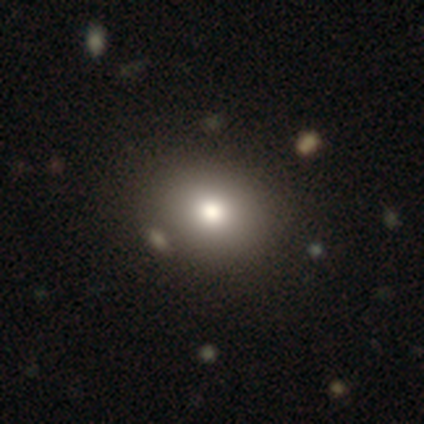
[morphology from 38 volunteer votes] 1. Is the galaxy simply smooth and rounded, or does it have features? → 95% smooth, 3% featured or disk, 3% star or artifact.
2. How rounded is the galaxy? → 64% round, 36% in between, 0% cigar-shaped.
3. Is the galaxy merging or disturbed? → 65% none, 3% minor disturbance, 3% major disturbance, 3% merger.